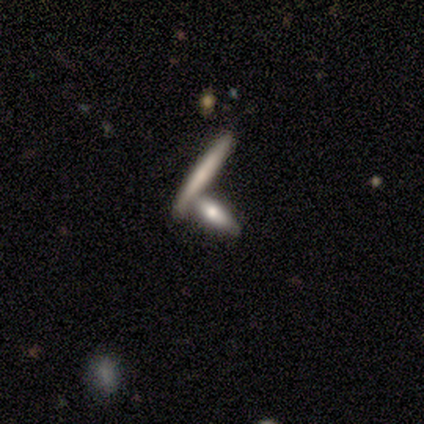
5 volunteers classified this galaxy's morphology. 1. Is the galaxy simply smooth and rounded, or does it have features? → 60% featured or disk, 40% smooth, 0% star or artifact.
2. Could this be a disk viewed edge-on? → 100% yes, 0% no.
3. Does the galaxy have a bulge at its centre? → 33% boxy (tied), 33% none (tied), 33% rounded (tied).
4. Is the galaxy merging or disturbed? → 60% none, 40% merger, 0% minor disturbance, 0% major disturbance.